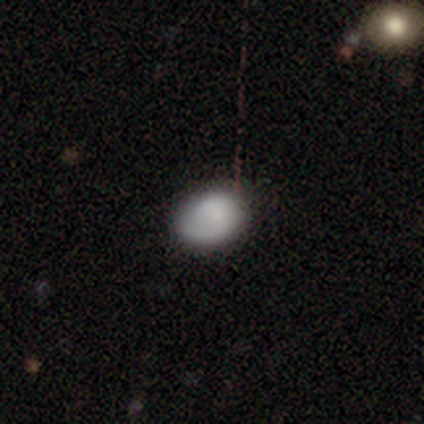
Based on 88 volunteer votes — A smooth galaxy with no disk features (73%) that is in between round and cigar-shaped (67%).

Vote fractions:
- Smooth or featured? smooth: 73% / featured or disk: 18% / star or artifact: 9%
- How rounded? in between: 67% / round: 31% / cigar-shaped: 2%
- Merging? none: 75% / minor disturbance: 21% / major disturbance: 4% / merger: 0%